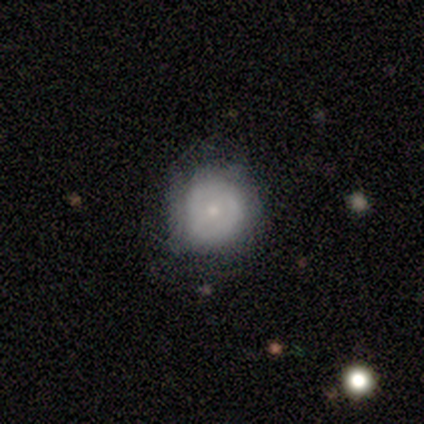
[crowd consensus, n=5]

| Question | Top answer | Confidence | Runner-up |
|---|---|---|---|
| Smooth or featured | featured or disk | 60% | smooth (40%) |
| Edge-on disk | no | 100% | — |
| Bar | no | 67% | strong (33%) |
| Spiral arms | yes | 67% | no (33%) |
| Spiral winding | tight | 50% | tied: loose (50%) |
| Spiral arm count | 2 | 50% | tied: can't tell (50%) |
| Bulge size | small | 67% | moderate (33%) |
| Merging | none | 60% | minor disturbance (20%) |